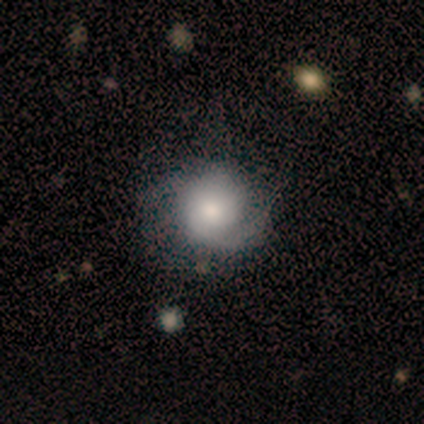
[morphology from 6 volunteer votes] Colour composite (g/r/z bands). It shows a featured or disk galaxy (50%) with no bar (100%), 1 (33%, tied with 2 and can't tell) tight (67%) spiral arms (100%) and a large central bulge (67%). Merging: none (40%, tied with minor disturbance).